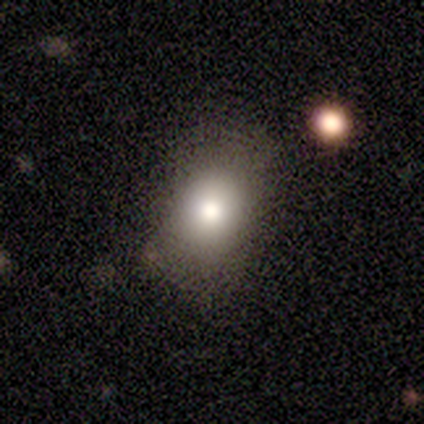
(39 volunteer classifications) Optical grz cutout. It shows a smooth galaxy with no disk features (69%) that is in between round and cigar-shaped (70%). Merging: none (67%).